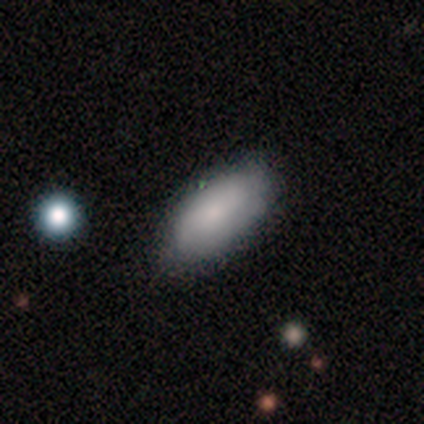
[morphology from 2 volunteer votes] smooth 100%, featured or disk 0%, star or artifact 0%. Down the decision tree: how rounded — in between (100%); merging — none (100%).